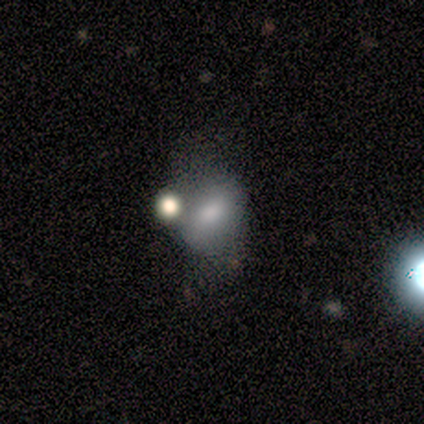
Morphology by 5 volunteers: This appears to be a smooth galaxy with no disk features (100%) that is in between round and cigar-shaped (80%). Merging: none (40%, tied with major disturbance).